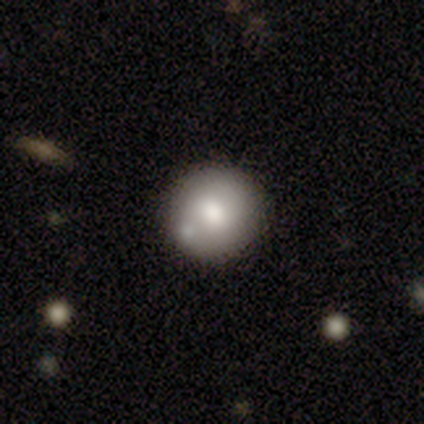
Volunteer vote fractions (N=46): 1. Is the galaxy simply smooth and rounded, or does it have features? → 76% smooth, 22% featured or disk, 2% star or artifact.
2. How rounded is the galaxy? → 94% round, 6% in between, 0% cigar-shaped.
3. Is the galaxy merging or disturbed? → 87% none, 9% minor disturbance, 4% merger, 0% major disturbance.